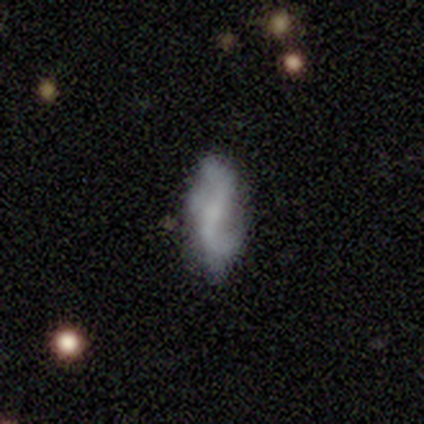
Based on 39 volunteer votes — Smooth or featured? 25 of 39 (64%) said featured or disk. Edge-on disk? 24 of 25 (96%) said no. Bar? 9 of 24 (38%, tied with no) said weak. Spiral arms? 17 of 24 (71%) said yes. Spiral winding? 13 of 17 (76%) said loose. Spiral arm count? 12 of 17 (71%) said 2. Bulge size? 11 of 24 (46%) said none. Merging? 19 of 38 (50%) said none.